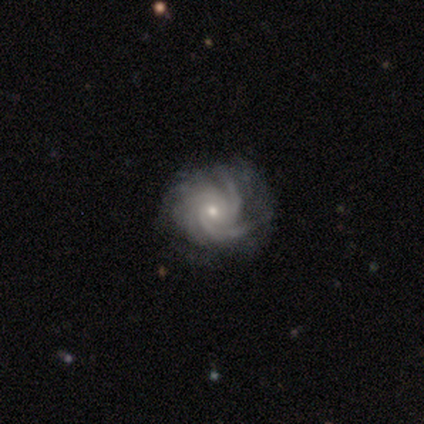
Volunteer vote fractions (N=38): Overall: featured or disk (100%). Edge-on disk: no (100%). Bar: no (76%). Spiral arms: yes (97%). Spiral arm count: 3 (49%; more than 4 22%). Spiral winding: tight (65%; medium 27%). Bulge size: small (66%; moderate 34%). Merging: none (66%; minor disturbance 29%).